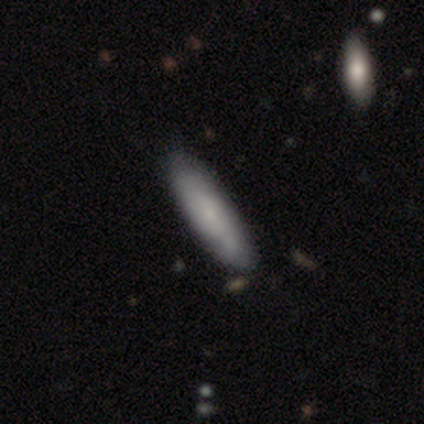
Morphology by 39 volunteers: This appears to be a smooth galaxy with no disk features (79%) that is cigar-shaped (81%). Merging: none (89%).